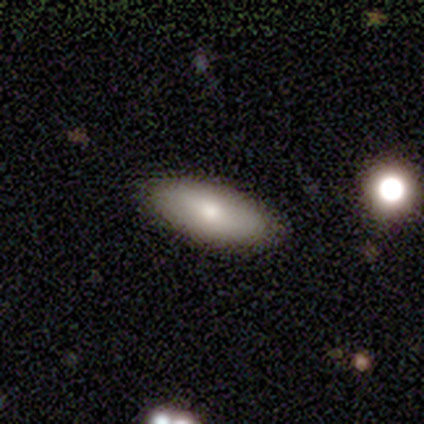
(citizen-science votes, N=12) A smooth galaxy with no disk features (75%) that is in between round and cigar-shaped (78%). Merging: none (100%).